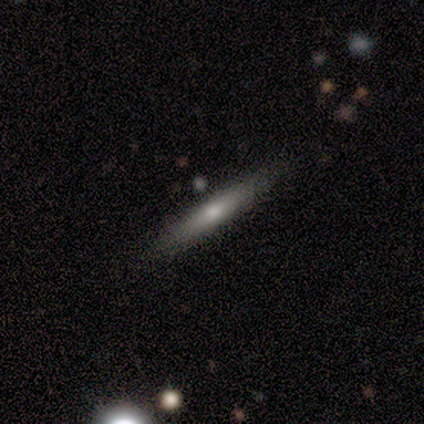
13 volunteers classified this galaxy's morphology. Overall: smooth (54%; featured or disk 46%). How rounded: cigar-shaped (100%). Merging: none (92%).